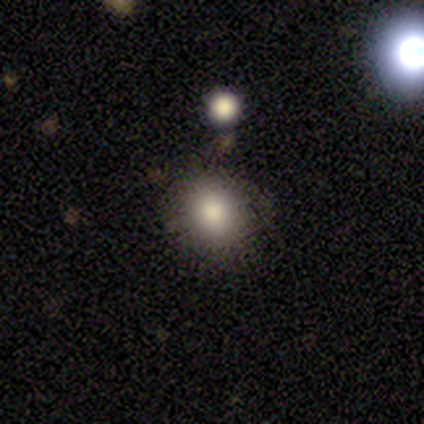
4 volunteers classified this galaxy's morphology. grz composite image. It shows a smooth galaxy with no disk features (75%) that is round (100%). Merging: none (67%).